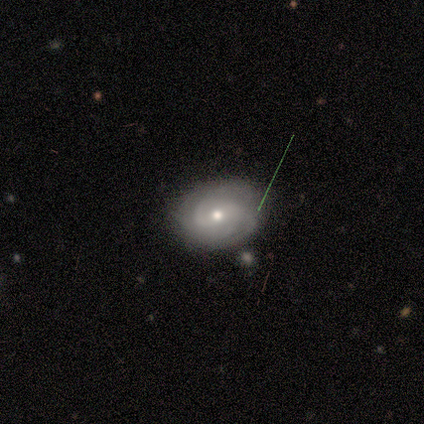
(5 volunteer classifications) This appears to be a featured or disk galaxy (80%) with a weak bar (50%, tied with no), 2 (50%) tight (50%) spiral arms (100%) and a small central bulge (50%). Merging: none (75%).